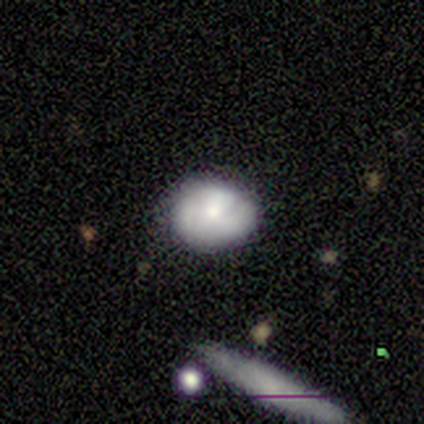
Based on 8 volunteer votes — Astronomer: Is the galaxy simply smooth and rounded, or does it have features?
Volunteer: smooth — 50%, tied with featured or disk at 50%.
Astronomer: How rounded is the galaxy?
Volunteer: round — 50%, tied with in between at 50%.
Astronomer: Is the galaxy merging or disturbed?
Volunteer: none — 62%.